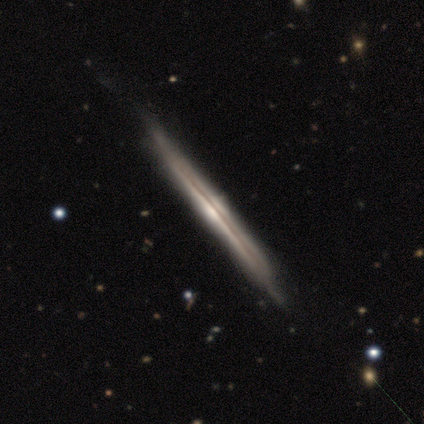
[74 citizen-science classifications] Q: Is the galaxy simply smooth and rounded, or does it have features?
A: featured or disk — 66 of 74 (89%).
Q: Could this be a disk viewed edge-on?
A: yes — 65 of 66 (98%).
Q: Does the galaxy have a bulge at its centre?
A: rounded — 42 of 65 (65%).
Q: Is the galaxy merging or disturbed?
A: none — 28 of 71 (39%).